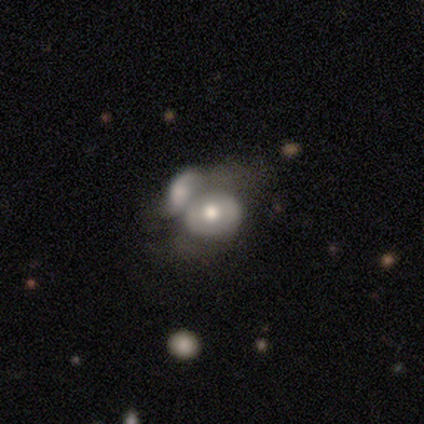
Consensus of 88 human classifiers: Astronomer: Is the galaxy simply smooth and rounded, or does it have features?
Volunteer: smooth — 52% (runner-up: featured or disk, 48%).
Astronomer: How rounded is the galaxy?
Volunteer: in between — 59% (runner-up: round, 41%).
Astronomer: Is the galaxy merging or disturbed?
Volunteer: merger — 70%.